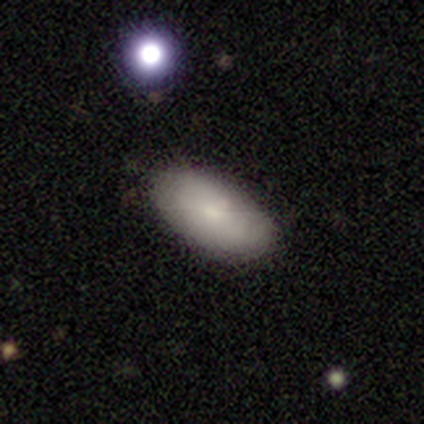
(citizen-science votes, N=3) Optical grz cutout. It shows a smooth galaxy with no disk features (100%) that is in between round and cigar-shaped (100%). Merging: none (100%).